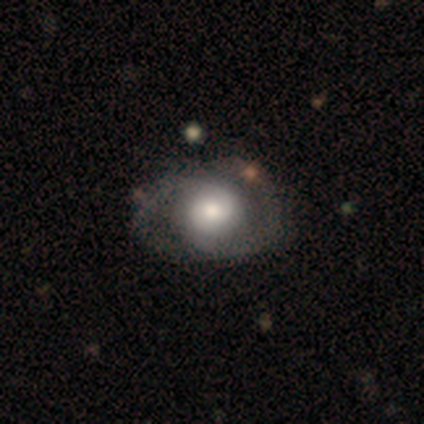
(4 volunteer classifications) Overall: smooth (50%, tied with featured or disk). How rounded: round (100%). Merging: none (100%).